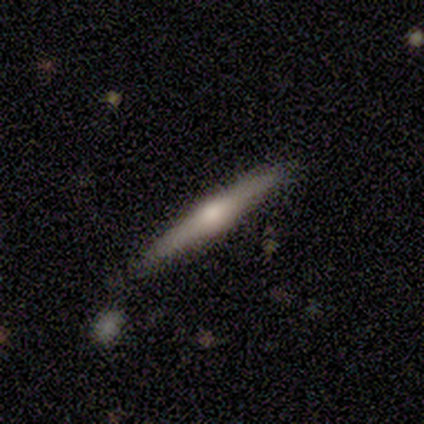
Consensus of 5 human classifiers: Volunteers were most divided on "smooth or featured": featured or disk: 60%, smooth: 40%, star or artifact: 0%. More confident: edge-on disk — yes (100%); edge-on bulge — rounded (100%); merging — none (100%).